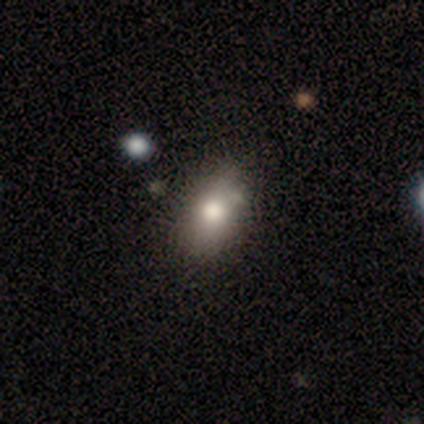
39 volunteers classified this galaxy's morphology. smooth 79%, star or artifact 13%, featured or disk 8%. Down the decision tree: how rounded — in between (81%); merging — none (65%).